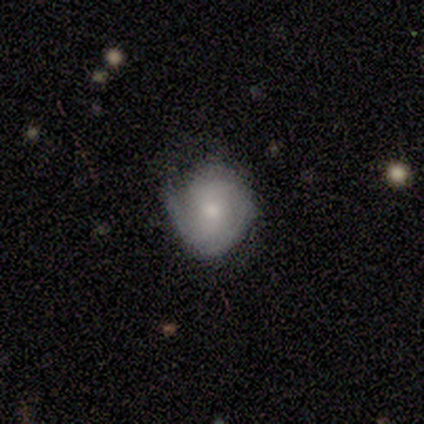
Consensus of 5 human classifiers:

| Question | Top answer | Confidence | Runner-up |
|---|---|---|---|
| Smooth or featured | smooth | 60% | featured or disk (20%) |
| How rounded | round | 100% | — |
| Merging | none | 75% | minor disturbance (25%) |